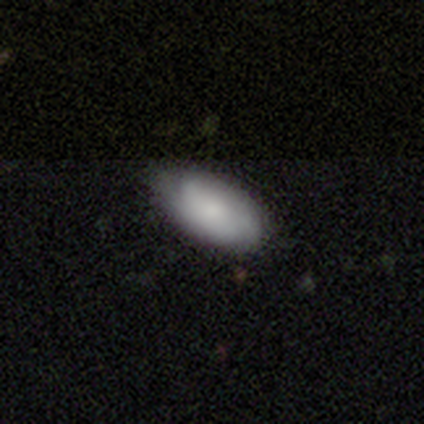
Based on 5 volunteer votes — featured or disk 60%, smooth 40%, star or artifact 0%. Down the decision tree: edge-on disk — yes (67%); edge-on bulge — boxy (50%, tied with none); merging — none (40%, tied with minor disturbance).